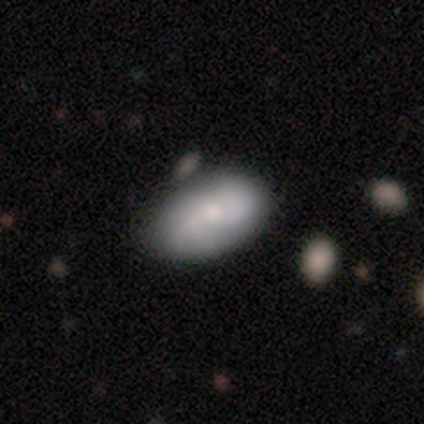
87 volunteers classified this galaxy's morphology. This is likely a smooth galaxy (69%). How rounded: clearly in between (90%). Merging: likely none (72%).